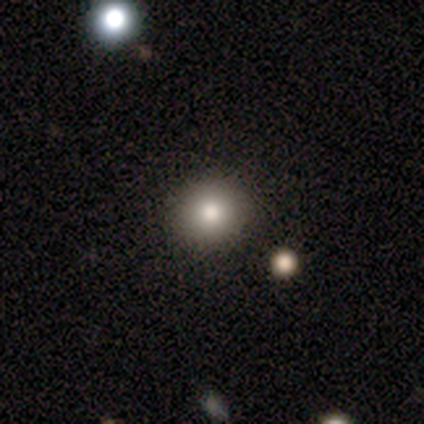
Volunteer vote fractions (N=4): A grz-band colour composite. It shows a smooth galaxy with no disk features (75%) that is round (100%). Merging: none (75%).